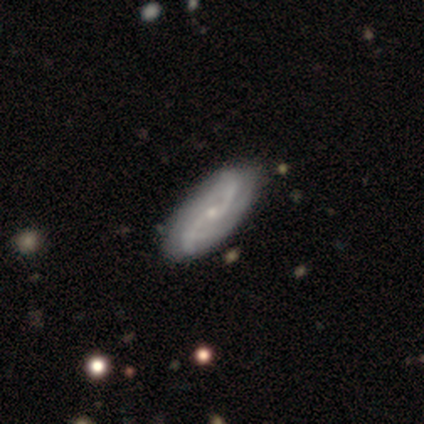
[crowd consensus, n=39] Smooth or featured: featured or disk — 95% (smooth — 3%)
Edge-on disk: no — 97% (yes — 3%)
Bar: no — 64% (weak — 33%)
Spiral arms: yes — 92% (no — 8%)
Spiral winding: loose — 76% (medium — 15%)
Spiral arm count: 2 — 94% (4 — 3%)
Bulge size: small — 72% (moderate — 22%)
Merging: none — 50% (minor disturbance — 13%)